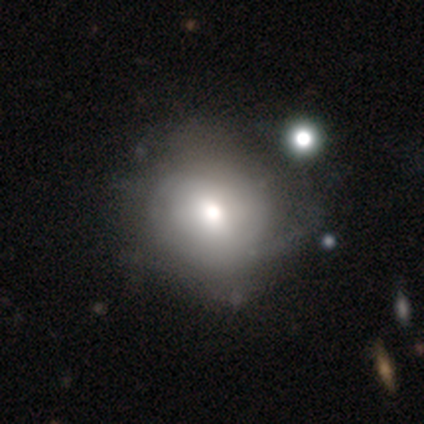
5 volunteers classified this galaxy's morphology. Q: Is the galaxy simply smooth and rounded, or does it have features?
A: featured or disk — 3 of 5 (60%).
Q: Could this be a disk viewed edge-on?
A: no — 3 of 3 (100%).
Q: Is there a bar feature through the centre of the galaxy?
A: no — 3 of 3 (100%).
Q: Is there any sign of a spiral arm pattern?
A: yes — 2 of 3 (67%).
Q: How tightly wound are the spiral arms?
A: tight — 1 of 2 (50%, tied with medium).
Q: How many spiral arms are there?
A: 2 — 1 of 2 (50%, tied with can't tell).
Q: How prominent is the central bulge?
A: moderate — 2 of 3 (67%).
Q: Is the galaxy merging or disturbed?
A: none — 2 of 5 (40%, tied with minor disturbance).